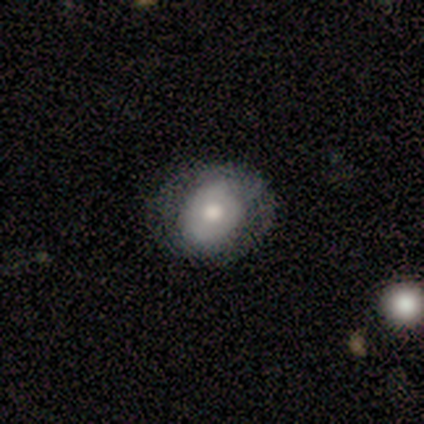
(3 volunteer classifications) A smooth galaxy with no disk features (67%) that is round (50%, tied with in between). Merging: minor disturbance (67%).